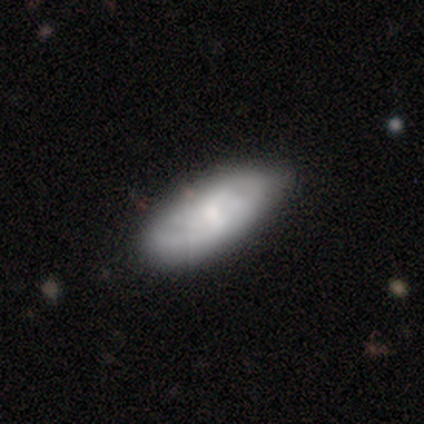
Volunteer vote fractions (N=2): A smooth galaxy with no disk features (50%, tied with featured or disk) that is in between round and cigar-shaped (100%). Merging: none (100%).